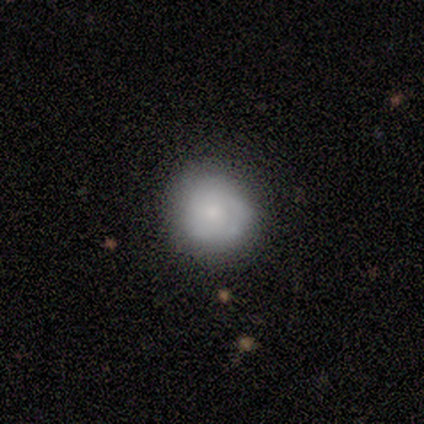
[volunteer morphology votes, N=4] type=smooth (100%); roundness=round (100%); merging=none (100%).